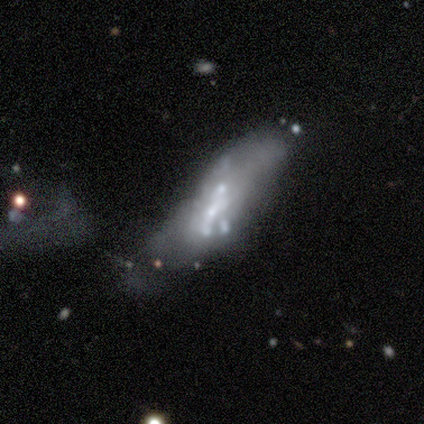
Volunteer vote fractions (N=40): A featured or disk galaxy (68%) with no bar (74%), no spiral arms (91%) and a small central bulge (43%).

Vote fractions:
- Smooth or featured? featured or disk: 68% / smooth: 20% / star or artifact: 12%
- Edge-on disk? no: 85% / yes: 15%
- Bar? no: 74% / strong: 13% / weak: 13%
- Spiral arms? no: 91% / yes: 9%
- Bulge size? small: 43% / moderate: 22% / large: 17% / none: 17% / dominant: 0%
- Merging? major disturbance: 29% (tied) / merger: 29% (tied) / minor disturbance: 23% / none: 20%